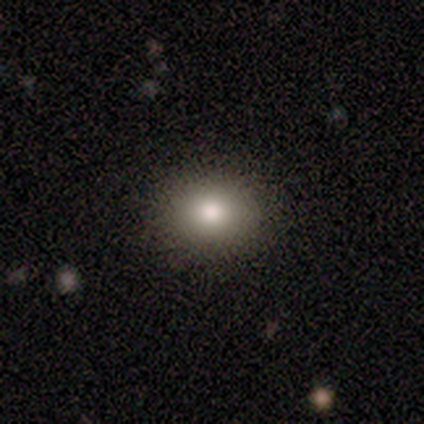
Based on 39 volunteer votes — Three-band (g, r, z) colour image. It shows a smooth galaxy with no disk features (74%) that is round (55%). Merging: none (91%).